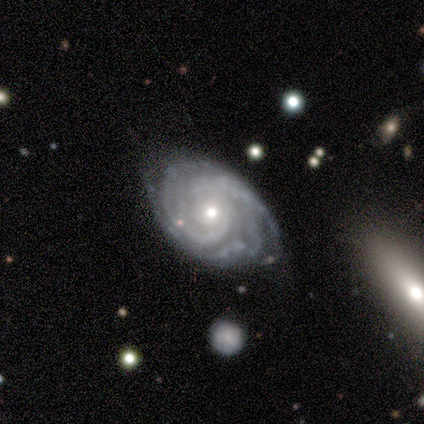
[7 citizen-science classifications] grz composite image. It shows a featured or disk galaxy (100%) with no bar (100%), tight (100%) spiral arms (100%) and a moderate central bulge (57%). Merging: none (57%).